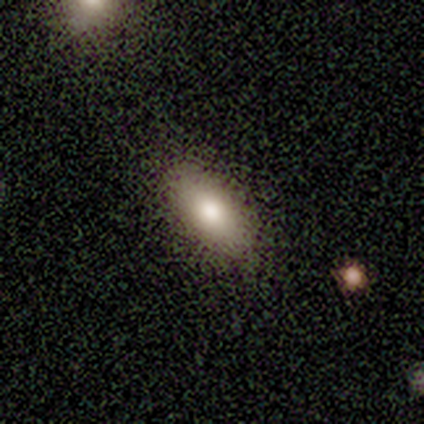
A smooth galaxy with no disk features (100%) that is in between round and cigar-shaped (100%).

Vote fractions:
- Smooth or featured? smooth: 100% / featured or disk: 0% / star or artifact: 0%
- How rounded? in between: 100% / round: 0% / cigar-shaped: 0%
- Merging? none: 80% / minor disturbance: 20% / major disturbance: 0% / merger: 0%